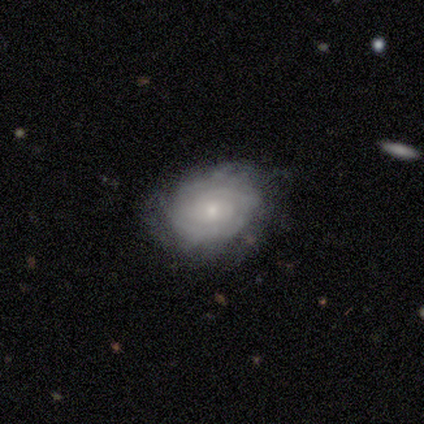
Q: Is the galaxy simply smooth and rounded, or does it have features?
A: featured or disk — 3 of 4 (75%).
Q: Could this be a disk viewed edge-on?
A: no — 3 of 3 (100%).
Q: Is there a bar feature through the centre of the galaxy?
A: no — 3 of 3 (100%).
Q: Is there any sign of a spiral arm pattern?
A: yes — 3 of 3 (100%).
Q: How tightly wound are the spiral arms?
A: tight — 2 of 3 (67%).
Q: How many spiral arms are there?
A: can't tell — 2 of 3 (67%).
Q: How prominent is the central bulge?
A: small — 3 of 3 (100%).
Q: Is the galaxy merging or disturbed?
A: minor disturbance — 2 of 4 (50%).